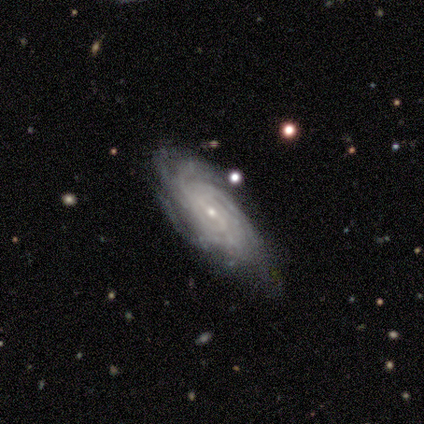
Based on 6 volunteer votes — Morphology: type=featured or disk (100%); edge-on=no (100%); bar=weak (67%); spiral arms=yes (100%); winding=tight (100%); arm count=more than 4 (50%); bulge=small (67%); merging=none (67%).